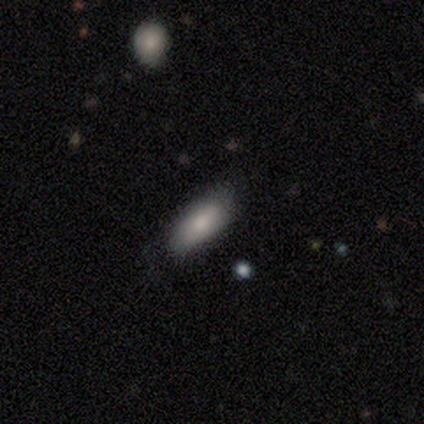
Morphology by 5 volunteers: This is clearly a smooth galaxy (80%). How rounded: clearly in between (100%). Merging: clearly none (100%).